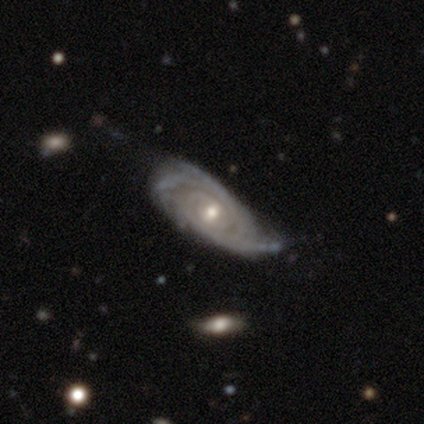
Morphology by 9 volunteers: type=featured or disk (100%); edge-on=no (100%); bar=no (56%); spiral arms=yes (100%); winding=tight (89%); arm count=can't tell (56%); bulge=moderate (78%); merging=minor disturbance (67%).